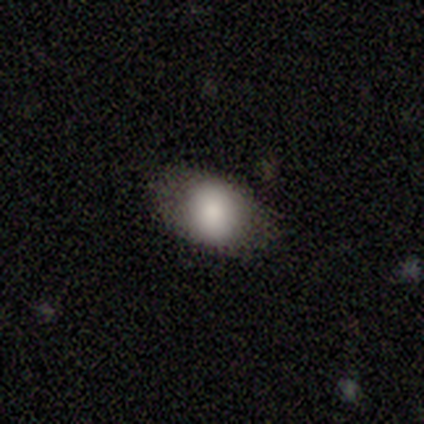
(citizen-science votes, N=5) This is clearly a smooth galaxy (80%). How rounded: likely in between (75%). Merging: clearly none (80%).